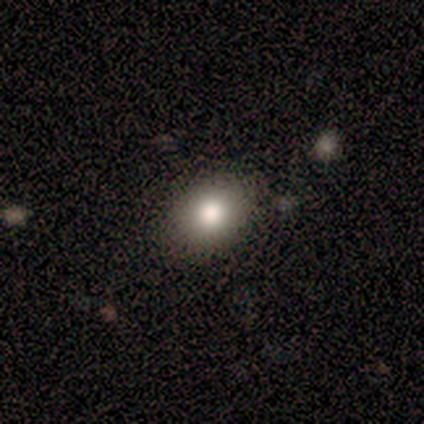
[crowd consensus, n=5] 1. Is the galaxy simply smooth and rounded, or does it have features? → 80% smooth, 20% featured or disk, 0% star or artifact.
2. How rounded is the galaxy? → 75% round, 25% in between, 0% cigar-shaped.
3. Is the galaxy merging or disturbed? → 100% none, 0% minor disturbance, 0% major disturbance, 0% merger.